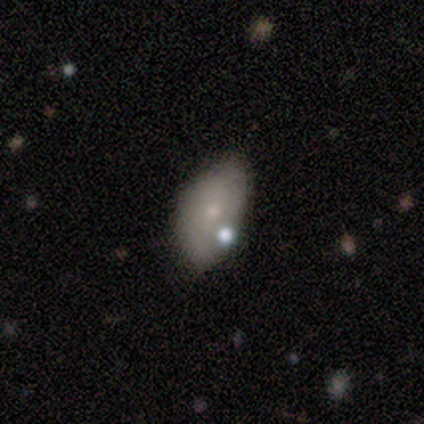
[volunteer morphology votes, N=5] This appears to be a smooth galaxy with no disk features (60%) that is in between round and cigar-shaped (100%). Merging: none (50%).